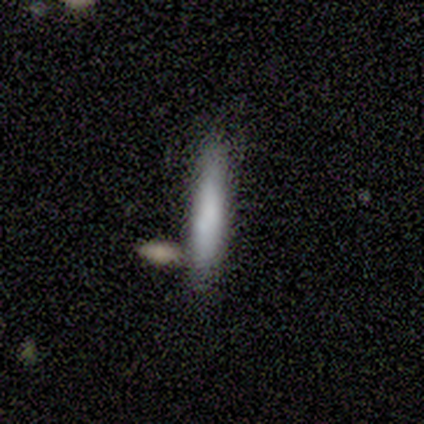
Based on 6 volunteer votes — smooth_or_featured: smooth (p=0.83) [alt: featured or disk p=0.17]
how_rounded: cigar-shaped (p=1.00)
merging: none (p=0.50) [alt: minor disturbance p=0.17]